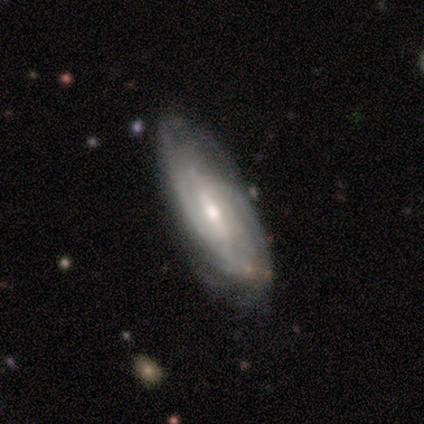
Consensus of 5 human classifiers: Overall: featured or disk (80%). Edge-on disk: no (75%). Bar: strong (33%, tied with weak and no). Spiral arms: yes (100%). Spiral arm count: can't tell (67%; 2 33%). Spiral winding: tight (67%; loose 33%). Bulge size: moderate (33%, tied with small and none). Merging: none (80%).